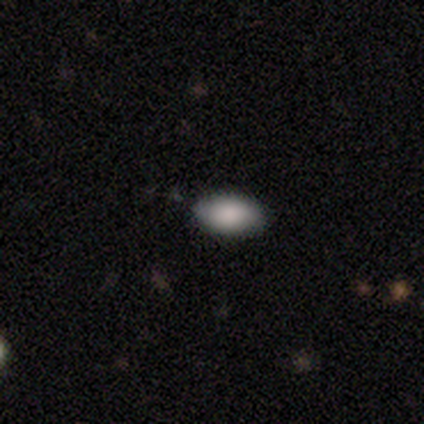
Q: Smooth or featured?
A: smooth (80%); runner-up: star or artifact (20%)
Q: How rounded?
A: in between (100%)
Q: Merging?
A: none (75%); runner-up: minor disturbance (25%)